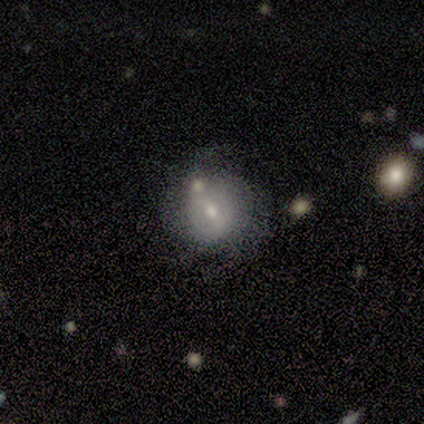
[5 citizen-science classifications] Morphology: type=smooth (40%, tied with featured or disk); roundness=round (50%, tied with in between); merging=none (75%).